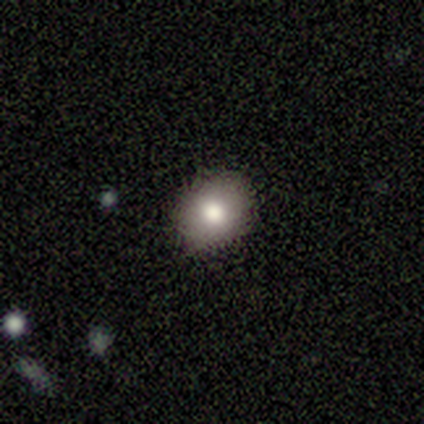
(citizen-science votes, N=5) Smooth or featured? smooth (60%)
How rounded? round (67%)
Merging? none (100%)